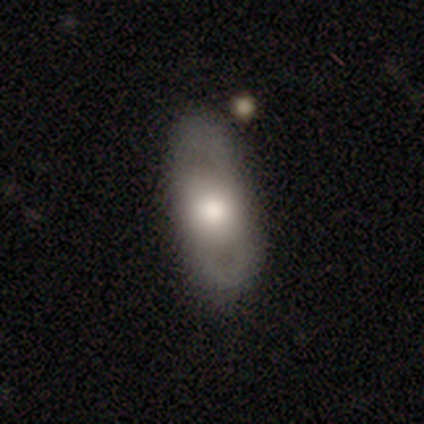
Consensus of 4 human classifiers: Smooth or featured?
  - featured or disk: 75% *
  - smooth: 25%
  - star or artifact: 0%
Edge-on disk?
  - no: 100% *
  - yes: 0%
Bar?
  - no: 100% *
  - strong: 0%
  - weak: 0%
Spiral arms?
  - no: 100% *
  - yes: 0%
Bulge size?
  - large: 67% *
  - dominant: 33%
  - moderate: 0%
  - small: 0%
  - none: 0%
Merging?
  - none: 50% *
  - major disturbance: 25%
  - merger: 25%
  - minor disturbance: 0%